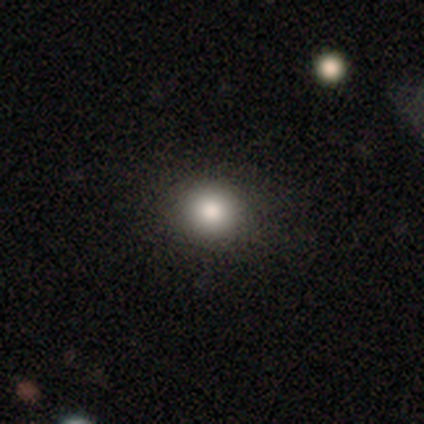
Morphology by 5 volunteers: Smooth or featured?
  - smooth: 80% *
  - featured or disk: 20%
  - star or artifact: 0%
How rounded?
  - round: 100% *
  - in between: 0%
  - cigar-shaped: 0%
Merging?
  - none: 80% *
  - minor disturbance: 20%
  - major disturbance: 0%
  - merger: 0%